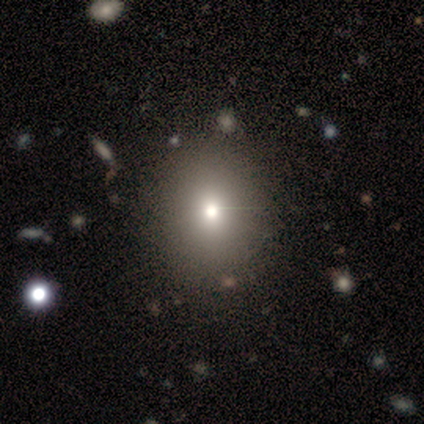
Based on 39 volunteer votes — Overall: smooth (82%). How rounded: round (75%). Merging: none (71%).